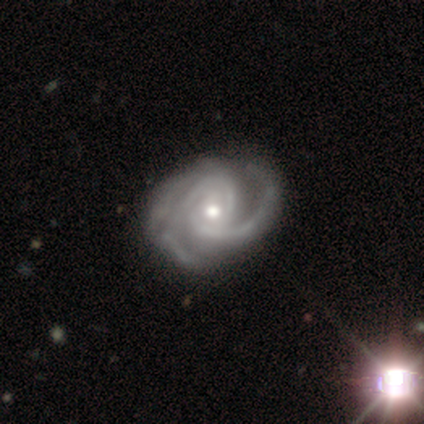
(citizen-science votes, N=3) Smooth or featured? featured or disk (100%)
Edge-on disk? no (100%)
Bar? no (67%)
Spiral arms? yes (100%)
Spiral winding? medium (67%)
Spiral arm count? 2 (33%, tied with 3 and can't tell)
Bulge size? small (67%)
Merging? none (67%)